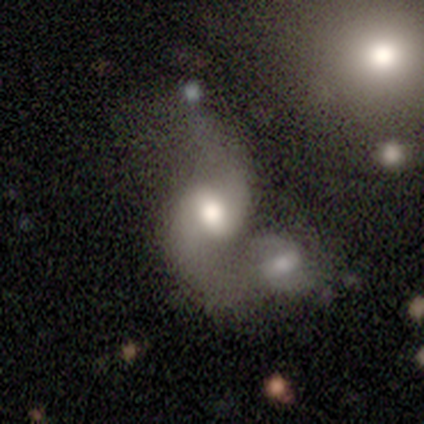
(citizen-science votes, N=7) Volunteers were most divided on "merging": merger: 43%, none: 29%, minor disturbance: 29%, major disturbance: 0%. More confident: edge-on disk — no (100%); spiral arm count — 2 (100%); smooth or featured — featured or disk (86%); bar — no (83%); spiral winding — medium (75%); spiral arms — yes (67%); bulge size — moderate (50%).